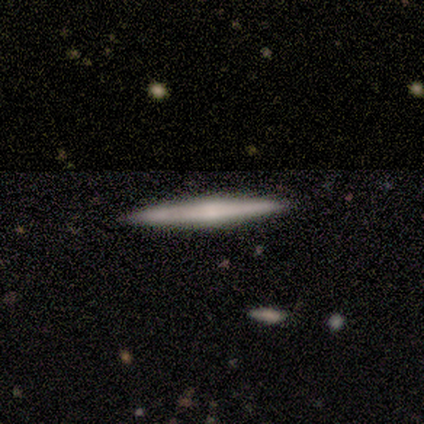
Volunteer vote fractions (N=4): smooth-or-featured: smooth: 50% (tied) | featured or disk: 50% (tied) | star or artifact: 0%
  how-rounded: cigar-shaped: 100% | round: 0% | in between: 0%
  merging: none: 100% | minor disturbance: 0% | major disturbance: 0% | merger: 0%